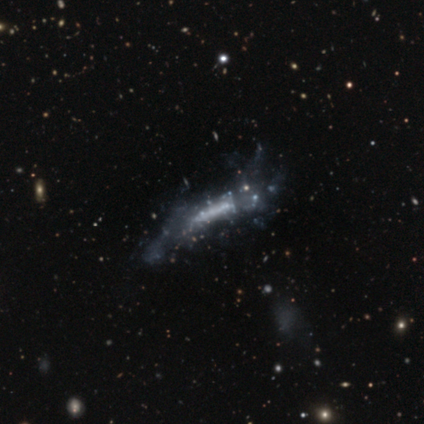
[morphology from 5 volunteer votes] A featured or disk galaxy (100%) with a strong bar (33%, tied with weak and no), 2 (50%, tied with can't tell) loose (100%) spiral arms (67%) and no central bulge (100%).

Vote fractions:
- Smooth or featured? featured or disk: 100% / smooth: 0% / star or artifact: 0%
- Edge-on disk? no: 60% / yes: 40%
- Bar? strong: 33% (tied) / weak: 33% (tied) / no: 33% (tied)
- Spiral arms? yes: 67% / no: 33%
- Spiral winding? loose: 100% / tight: 0% / medium: 0%
- Spiral arm count? 2: 50% (tied) / can't tell: 50% (tied) / 1: 0% / 3: 0% / 4: 0% / more than 4: 0%
- Bulge size? none: 100% / dominant: 0% / large: 0% / moderate: 0% / small: 0%
- Merging? none: 80% / minor disturbance: 20% / major disturbance: 0% / merger: 0%